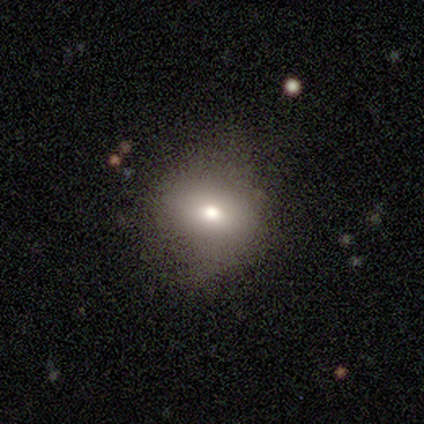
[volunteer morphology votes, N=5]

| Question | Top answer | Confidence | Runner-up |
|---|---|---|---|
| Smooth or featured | featured or disk | 60% | smooth (40%) |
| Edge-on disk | no | 100% | — |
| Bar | no | 100% | — |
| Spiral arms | no | 100% | — |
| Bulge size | moderate | 67% | large (33%) |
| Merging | none | 100% | — |